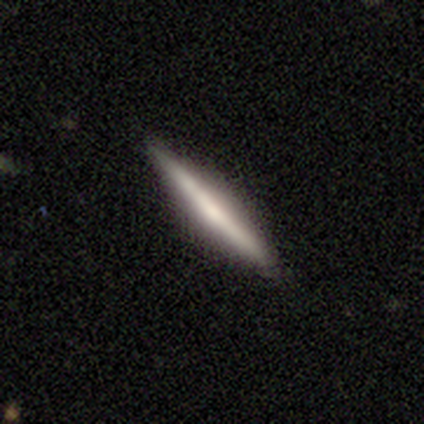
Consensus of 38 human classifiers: smooth-or-featured: featured or disk: 66% | smooth: 29% | star or artifact: 5%
  disk-edge-on: yes: 100% | no: 0%
    edge-on-bulge: none: 56% | rounded: 40% | boxy: 4%
  merging: none: 92% | minor disturbance: 8% | major disturbance: 0% | merger: 0%